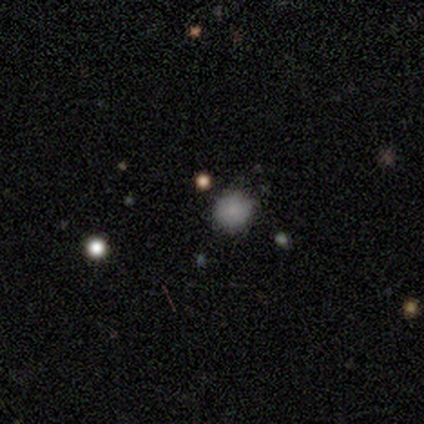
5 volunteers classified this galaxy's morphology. smooth 60%, star or artifact 40%, featured or disk 0%. Down the decision tree: how rounded — round (100%); merging — none (100%).